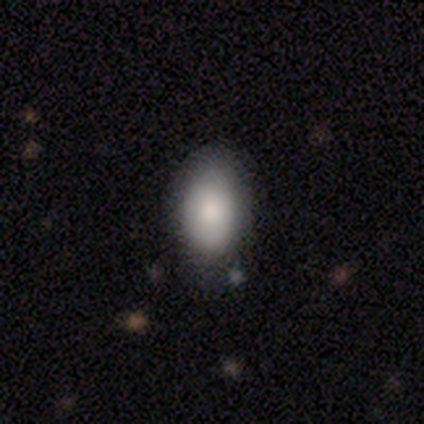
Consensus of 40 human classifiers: Morphology: type=smooth (75%); roundness=in between (90%); merging=none (50%).